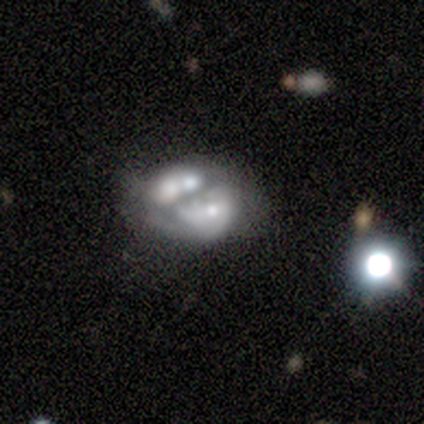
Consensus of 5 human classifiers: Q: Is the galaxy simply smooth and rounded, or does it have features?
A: featured or disk — 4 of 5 (80%).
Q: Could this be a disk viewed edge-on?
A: no — 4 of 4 (100%).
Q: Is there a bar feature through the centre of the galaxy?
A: no — 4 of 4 (100%).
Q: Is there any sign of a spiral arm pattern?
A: no — 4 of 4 (100%).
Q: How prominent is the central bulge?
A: moderate — 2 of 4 (50%).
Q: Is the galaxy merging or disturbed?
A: none — 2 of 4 (50%, tied with merger).